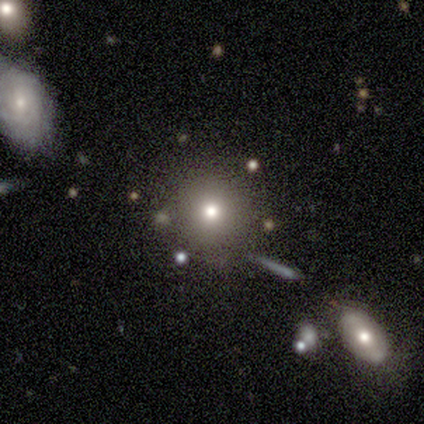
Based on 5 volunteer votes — Volunteers were most divided on "merging": none: 60%, minor disturbance: 40%, major disturbance: 0%, merger: 0%. More confident: how rounded — round (100%); smooth or featured — smooth (80%).